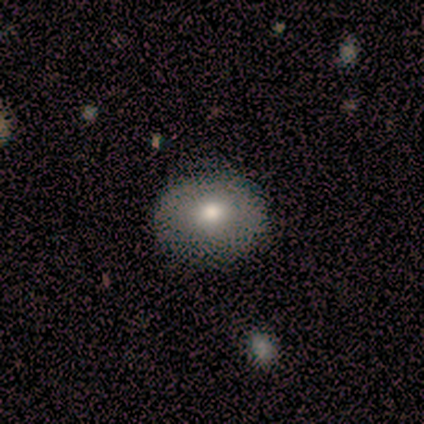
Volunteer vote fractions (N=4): Smooth or featured? 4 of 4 (100%) said smooth. How rounded? 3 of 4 (75%) said round. Merging? 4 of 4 (100%) said none.